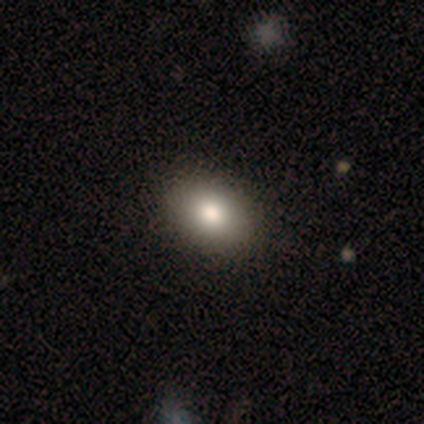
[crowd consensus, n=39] This is clearly a smooth galaxy (95%). How rounded: likely in between (76%). Merging: possibly none (59%).